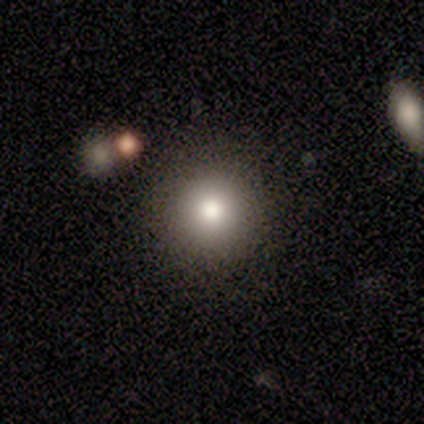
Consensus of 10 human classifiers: Smooth or featured? smooth (40%)
How rounded? round (50%, tied with in between)
Merging? none (71%)